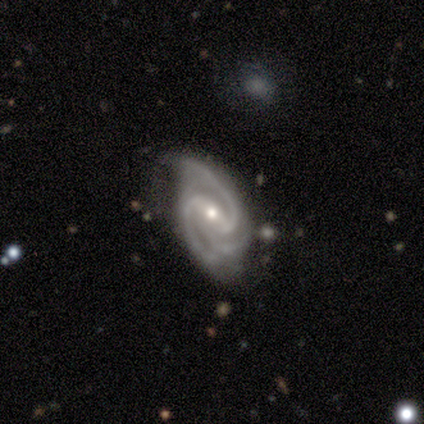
smooth_or_featured: featured or disk (p=1.00)
disk_edge_on: no (p=1.00)
bar: no (p=1.00)
has_spiral_arms: yes (p=1.00)
spiral_winding: medium (p=1.00)
spiral_arm_count: 3 (p=1.00)
bulge_size: small (p=1.00)
merging: minor disturbance (p=1.00)